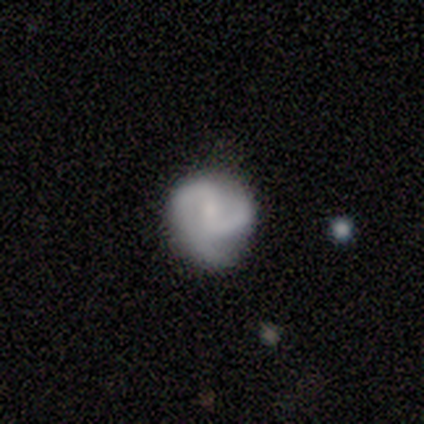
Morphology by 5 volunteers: smooth-or-featured: featured or disk: 80% | star or artifact: 20% | smooth: 0%
  disk-edge-on: no: 100% | yes: 0%
    bar: weak: 75% | no: 25% | strong: 0%
    has-spiral-arms: yes: 100% | no: 0%
      spiral-winding: medium: 50% | tight: 25% | loose: 25%
      spiral-arm-count: 3: 75% | 2: 25% | 1: 0% | 4: 0% | more than 4: 0% | can't tell: 0%
    bulge-size: none: 50% | moderate: 25% | small: 25% | dominant: 0% | large: 0%
  merging: none: 75% | minor disturbance: 25% | major disturbance: 0% | merger: 0%